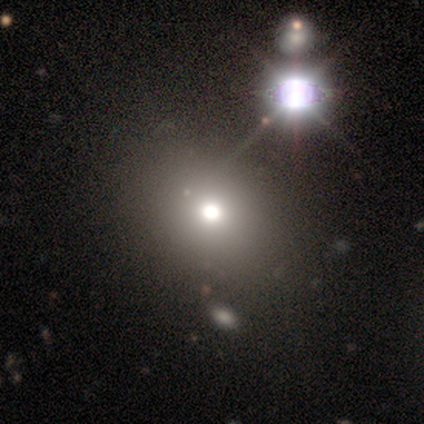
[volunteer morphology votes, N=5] Volunteers were most divided on "merging": none: 50%, major disturbance: 25%, merger: 25%, minor disturbance: 0%. More confident: smooth or featured — smooth (80%); how rounded — in between (75%).